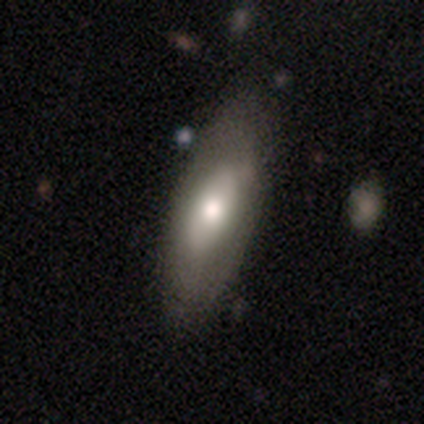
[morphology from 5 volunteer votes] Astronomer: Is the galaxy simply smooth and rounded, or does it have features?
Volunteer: featured or disk — 60% (runner-up: smooth, 40%).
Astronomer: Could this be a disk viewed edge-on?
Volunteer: yes — 67%.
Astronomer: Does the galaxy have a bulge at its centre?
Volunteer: rounded — 100%.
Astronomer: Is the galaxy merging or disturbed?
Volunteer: none — 80%.